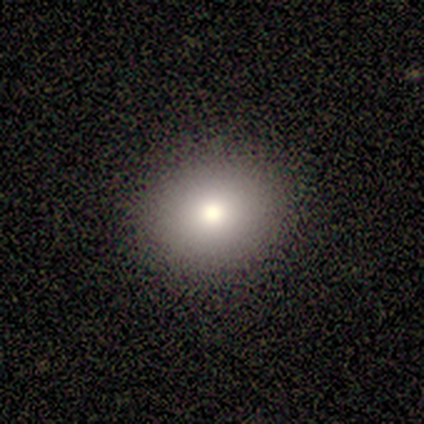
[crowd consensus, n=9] Smooth or featured? 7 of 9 (78%) said smooth. How rounded? 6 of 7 (86%) said round. Merging? 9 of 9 (100%) said none.